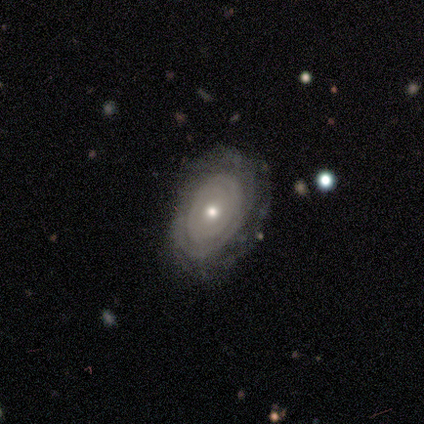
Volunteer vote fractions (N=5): Smooth or featured: featured or disk — 100%
Edge-on disk: no — 100%
Bar: no — 100%
Spiral arms: yes — 60% (no — 40%)
Spiral winding: tight — 100%
Spiral arm count: can't tell — 100%
Bulge size: moderate — 80% (small — 20%)
Merging: none — 100%